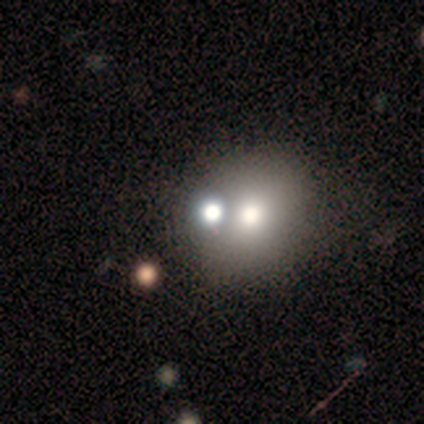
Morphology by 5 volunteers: Smooth or featured?
  - smooth: 60% *
  - featured or disk: 40%
  - star or artifact: 0%
How rounded?
  - round: 100% *
  - in between: 0%
  - cigar-shaped: 0%
Merging?
  - none: 80% *
  - minor disturbance: 20%
  - major disturbance: 0%
  - merger: 0%